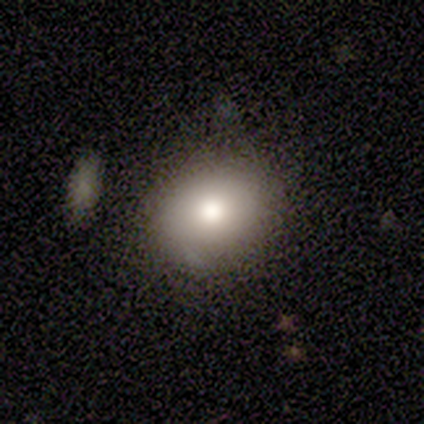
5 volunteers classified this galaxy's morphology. Volunteers were most divided on "how rounded": round: 80%, in between: 20%, cigar-shaped: 0%. More confident: smooth or featured — smooth (100%); merging — none (100%).